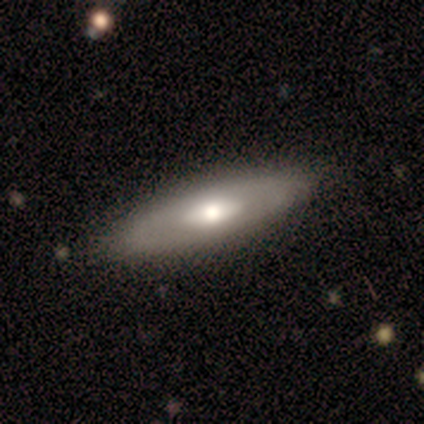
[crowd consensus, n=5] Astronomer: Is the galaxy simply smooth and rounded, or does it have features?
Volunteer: featured or disk — 80%.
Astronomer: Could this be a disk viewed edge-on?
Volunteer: no — 75%.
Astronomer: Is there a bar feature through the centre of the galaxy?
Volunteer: no — 67%.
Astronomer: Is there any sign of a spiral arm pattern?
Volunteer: no — 100%.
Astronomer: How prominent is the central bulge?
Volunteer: moderate — 67%.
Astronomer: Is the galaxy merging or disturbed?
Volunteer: none — 100%.